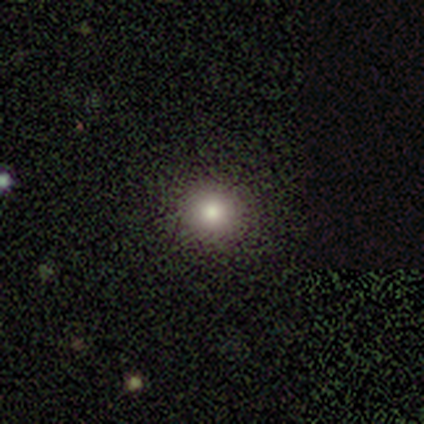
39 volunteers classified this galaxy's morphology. A smooth galaxy with no disk features (64%) that is round (88%). Merging: none (93%).